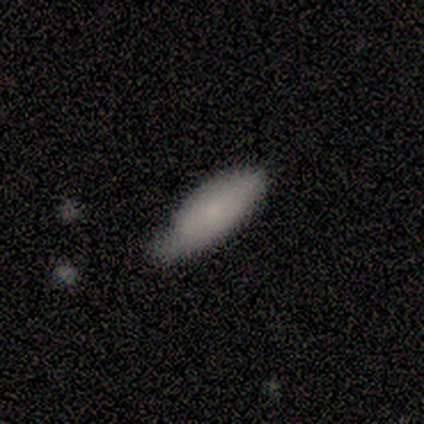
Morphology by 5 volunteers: Smooth or featured: smooth — 100%
How rounded: in between — 100%
Merging: minor disturbance — 60% (none — 40%)